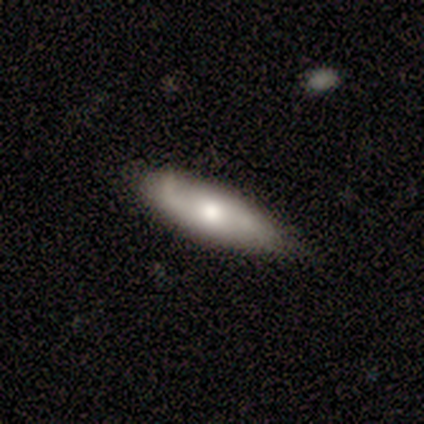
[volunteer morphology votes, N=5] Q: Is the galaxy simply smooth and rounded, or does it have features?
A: smooth — 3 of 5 (60%).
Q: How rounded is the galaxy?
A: in between — 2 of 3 (67%).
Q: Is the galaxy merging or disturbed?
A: none — 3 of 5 (60%).